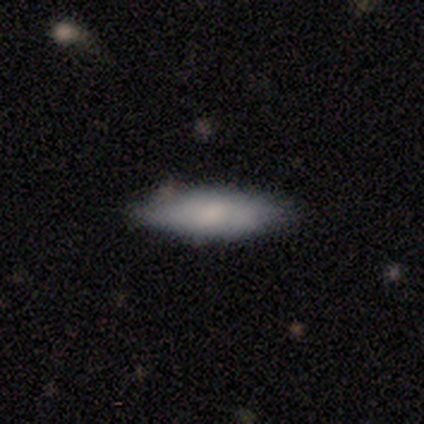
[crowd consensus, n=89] Q: Smooth or featured?
A: smooth (83%); runner-up: featured or disk (15%)
Q: How rounded?
A: cigar-shaped (57%); runner-up: in between (43%)
Q: Merging?
A: none (74%); runner-up: minor disturbance (18%)